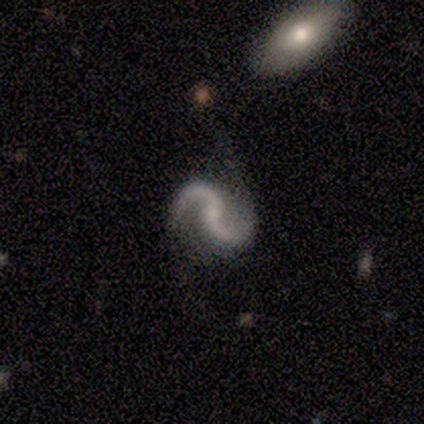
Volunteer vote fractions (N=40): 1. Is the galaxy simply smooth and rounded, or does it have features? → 92% featured or disk, 5% star or artifact, 2% smooth.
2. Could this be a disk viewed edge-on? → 100% no, 0% yes.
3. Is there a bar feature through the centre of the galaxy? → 59% no, 38% weak, 3% strong.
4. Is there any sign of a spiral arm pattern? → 95% yes, 5% no.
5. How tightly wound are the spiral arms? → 69% loose, 29% medium, 3% tight.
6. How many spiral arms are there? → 94% 2, 6% 1, 0% 3, 0% 4, 0% more than 4, 0% can't tell.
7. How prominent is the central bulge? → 51% small, 27% none, 19% moderate, 3% dominant, 0% large.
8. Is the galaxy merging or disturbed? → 66% none, 16% major disturbance, 13% minor disturbance, 5% merger.